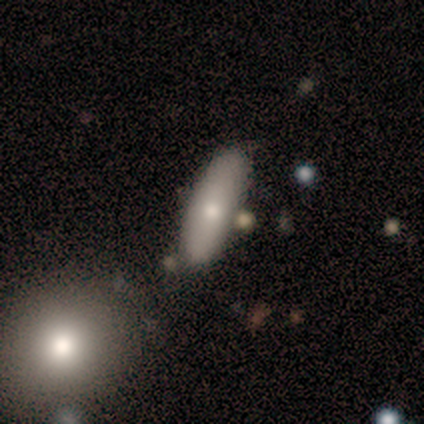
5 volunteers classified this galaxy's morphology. smooth_or_featured: smooth (p=0.80) [alt: featured or disk p=0.20]
how_rounded: in between (p=0.50) [tied with: cigar-shaped p=0.50]
merging: none (p=0.60) [alt: minor disturbance p=0.20]